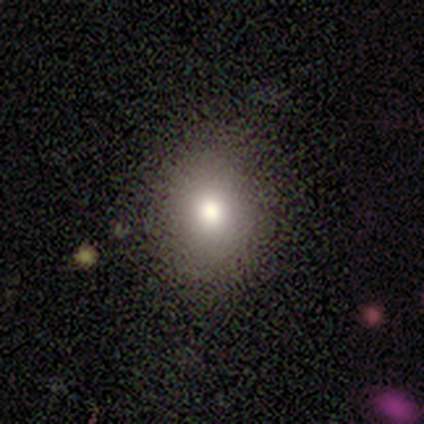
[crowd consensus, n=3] smooth 33% (tied), featured or disk 33% (tied), star or artifact 33% (tied). Down the decision tree: how rounded — in between (100%); merging — none (100%).